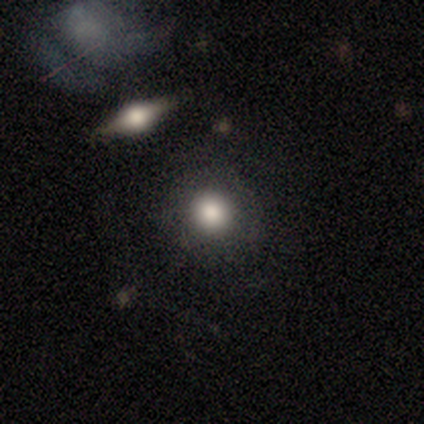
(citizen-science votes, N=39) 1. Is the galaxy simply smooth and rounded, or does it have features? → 82% smooth, 13% featured or disk, 5% star or artifact.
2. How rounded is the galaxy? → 91% round, 9% in between, 0% cigar-shaped.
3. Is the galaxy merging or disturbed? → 81% none, 11% minor disturbance, 5% major disturbance, 3% merger.